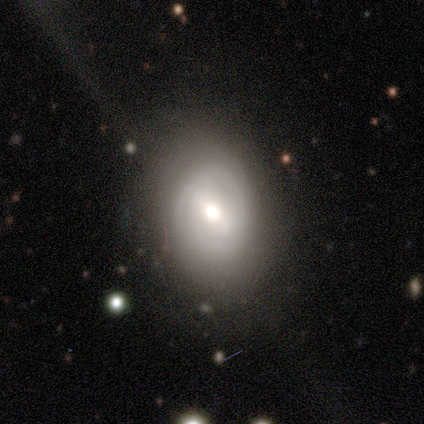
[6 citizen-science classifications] A featured or disk galaxy (67%) with a weak bar (100%), 3 (67%) tight (33%, tied with medium and loose) spiral arms (100%) and a moderate central bulge (100%). Merging: none (67%).